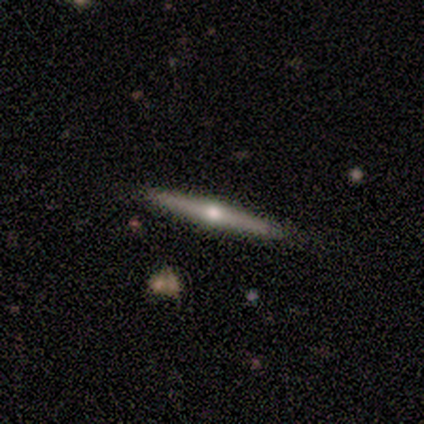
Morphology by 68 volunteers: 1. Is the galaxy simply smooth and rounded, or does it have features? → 78% featured or disk, 19% smooth, 3% star or artifact.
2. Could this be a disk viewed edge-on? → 98% yes, 2% no.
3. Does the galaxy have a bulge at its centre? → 94% rounded, 6% none, 0% boxy.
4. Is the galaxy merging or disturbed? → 92% none, 5% minor disturbance, 2% major disturbance, 2% merger.